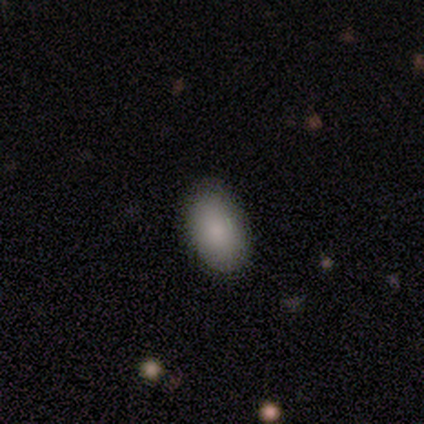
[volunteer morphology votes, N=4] Q: Smooth or featured?
A: smooth (100%)
Q: How rounded?
A: in between (100%)
Q: Merging?
A: none (100%)